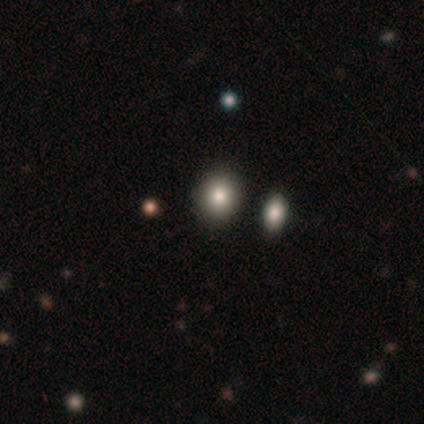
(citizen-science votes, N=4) Volunteers were most divided on "how rounded" (2-way tie): round: 50%, in between: 50%, cigar-shaped: 0%. More confident: smooth or featured — smooth (100%); merging — none (50%).